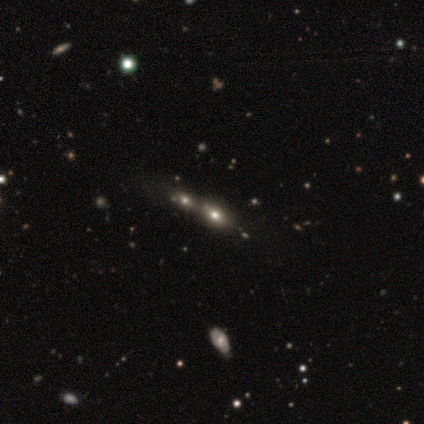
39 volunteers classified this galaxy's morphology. Volunteers were most divided on "smooth or featured": smooth: 51%, star or artifact: 26%, featured or disk: 23%. More confident: how rounded — in between (85%); merging — merger (62%).